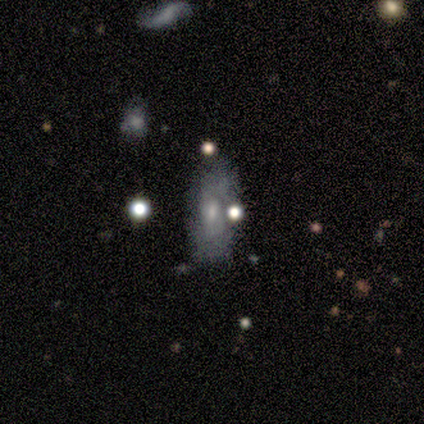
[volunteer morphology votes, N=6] Smooth or featured: featured or disk — 67% (smooth — 33%)
Edge-on disk: no — 75% (yes — 25%)
Bar: no — 100%
Spiral arms: yes — 67% (no — 33%)
Spiral winding: tight — 100%
Spiral arm count: can't tell — 100%
Bulge size: small — 67% (none — 33%)
Merging: none — 67% (minor disturbance — 17%)